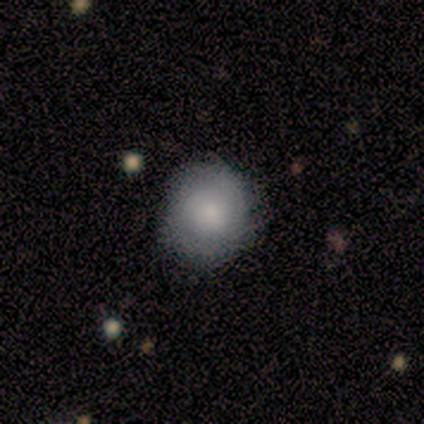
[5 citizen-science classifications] Smooth or featured? smooth (80%)
How rounded? round (100%)
Merging? none (80%)